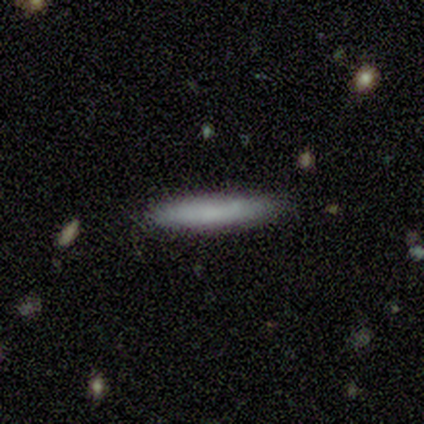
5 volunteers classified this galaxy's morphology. Volunteers were most divided on "smooth or featured": smooth: 80%, star or artifact: 20%, featured or disk: 0%. More confident: how rounded — cigar-shaped (100%); merging — none (100%).